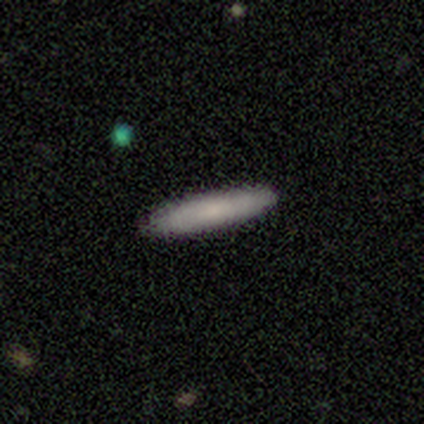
A smooth galaxy with no disk features (80%) that is cigar-shaped (100%). Merging: none (100%).